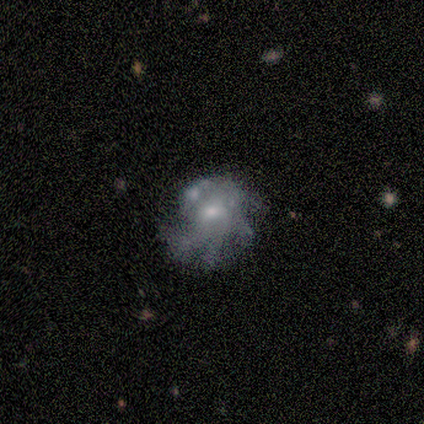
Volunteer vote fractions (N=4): Overall: featured or disk (75%). Edge-on disk: no (100%). Bar: no (67%; weak 33%). Spiral arms: yes (67%; no 33%). Spiral arm count: 4 (100%). Spiral winding: medium (50%, tied with loose). Bulge size: small (67%; moderate 33%). Merging: minor disturbance (33%, tied with major disturbance and merger).